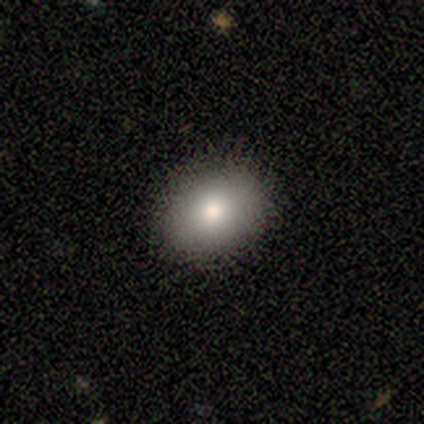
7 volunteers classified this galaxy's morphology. Q: Smooth or featured?
A: smooth (57%); runner-up: featured or disk (43%)
Q: How rounded?
A: in between (100%)
Q: Merging?
A: none (57%); runner-up: minor disturbance (29%)